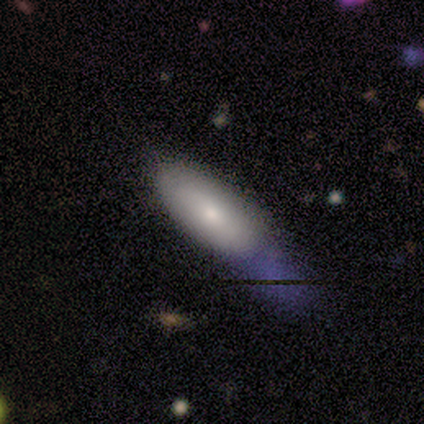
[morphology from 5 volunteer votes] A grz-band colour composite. It shows a smooth galaxy with no disk features (100%) that is in between round and cigar-shaped (60%). Merging: none (80%).